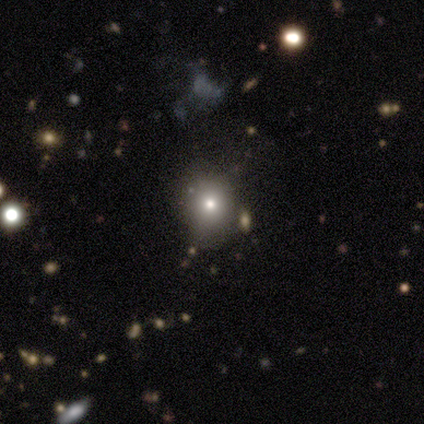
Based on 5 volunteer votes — Smooth or featured?
  - smooth: 80% *
  - star or artifact: 20%
  - featured or disk: 0%
How rounded?
  - round: 75% *
  - in between: 25%
  - cigar-shaped: 0%
Merging?
  - none: 100% *
  - minor disturbance: 0%
  - major disturbance: 0%
  - merger: 0%